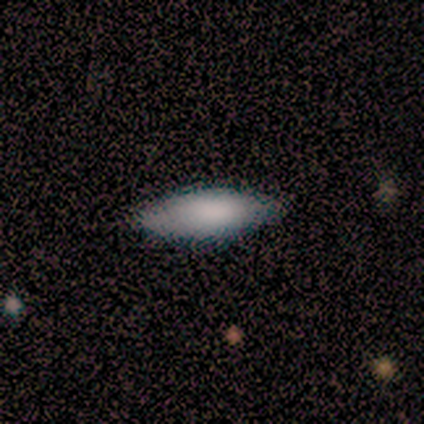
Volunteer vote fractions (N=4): Smooth or featured? 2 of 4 (50%, tied with featured or disk) said smooth. How rounded? 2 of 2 (100%) said in between. Merging? 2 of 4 (50%, tied with minor disturbance) said none.